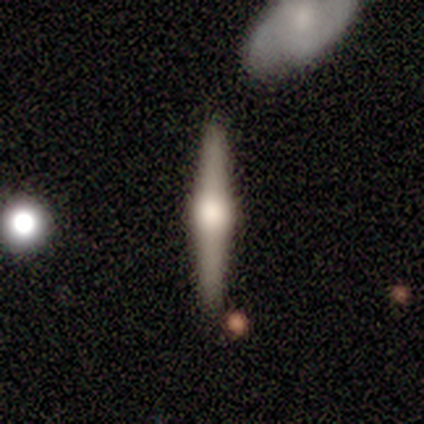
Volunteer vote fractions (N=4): Smooth or featured: smooth — 50% (tied with featured or disk — 50%)
How rounded: cigar-shaped — 100%
Merging: none — 75% (minor disturbance — 25%)